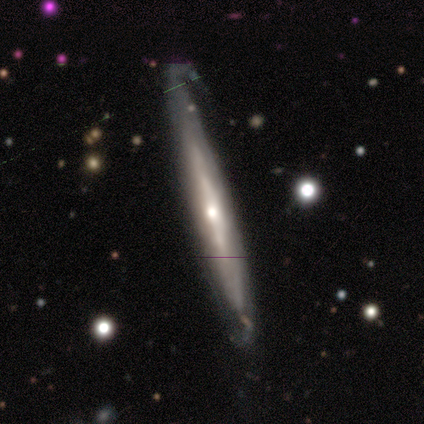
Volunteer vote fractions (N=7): Overall: featured or disk (86%). Edge-on disk: yes (50%, tied with no). Edge-on bulge: rounded (67%; none 33%). Merging: none (71%).